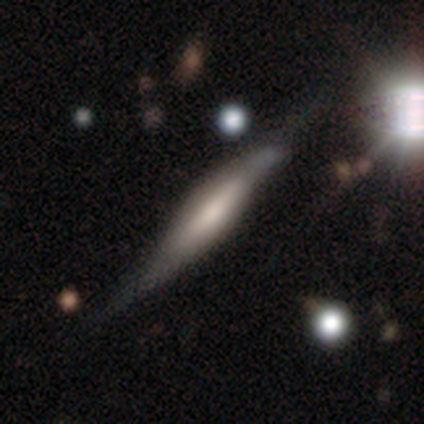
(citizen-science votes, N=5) Volunteers were most divided on "merging": none: 60%, minor disturbance: 40%, major disturbance: 0%, merger: 0%. More confident: edge-on disk — yes (100%); smooth or featured — featured or disk (80%); edge-on bulge — boxy (50%).